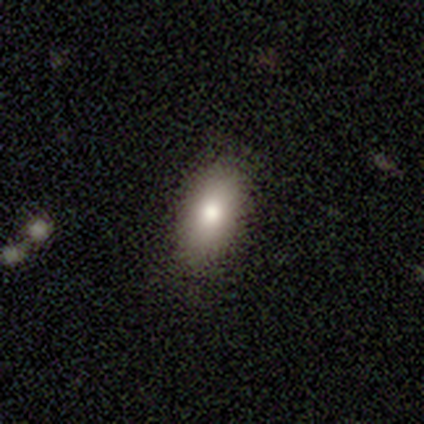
smooth_or_featured: smooth (p=0.86) [alt: star or artifact p=0.08]
how_rounded: in between (p=0.81) [alt: round p=0.09]
merging: none (p=0.82) [alt: minor disturbance p=0.12]